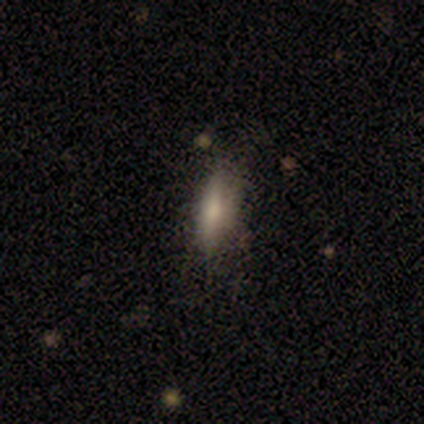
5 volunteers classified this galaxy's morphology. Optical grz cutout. It shows a featured or disk galaxy (80%) viewed edge-on (50%, tied with no) with no central bulge (50%, tied with rounded). Merging: none (60%).